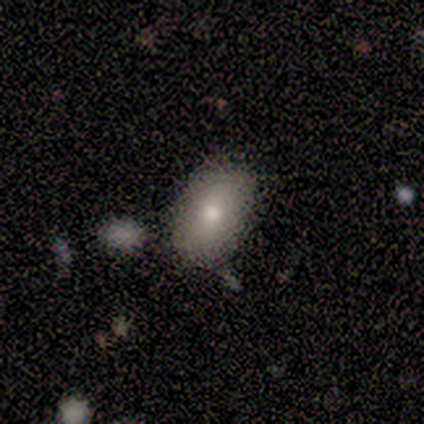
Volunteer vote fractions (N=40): This appears to be a smooth galaxy with no disk features (80%) that is in between round and cigar-shaped (94%). Merging: none (84%).